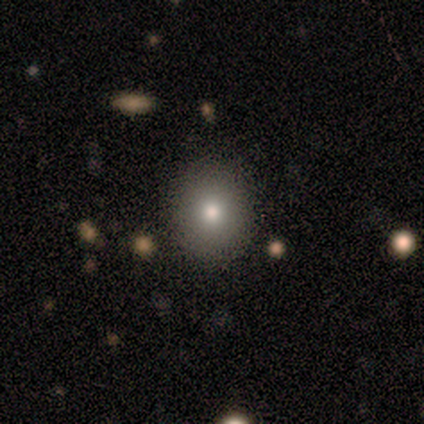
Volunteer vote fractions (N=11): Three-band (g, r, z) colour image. It shows a smooth galaxy with no disk features (82%) that is round (89%). Merging: none (90%).